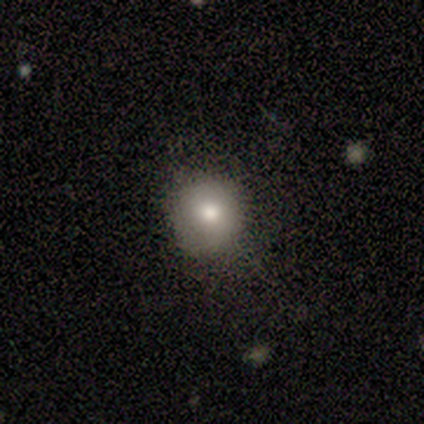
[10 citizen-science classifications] A smooth galaxy with no disk features (80%) that is round (75%).

Vote fractions:
- Smooth or featured? smooth: 80% / featured or disk: 20% / star or artifact: 0%
- How rounded? round: 75% / in between: 25% / cigar-shaped: 0%
- Merging? none: 70% / minor disturbance: 30% / major disturbance: 0% / merger: 0%